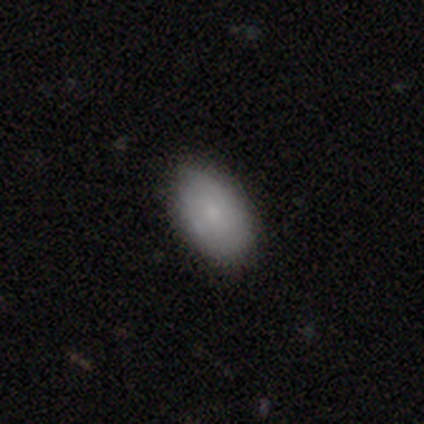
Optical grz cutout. It shows a smooth galaxy with no disk features (80%) that is in between round and cigar-shaped (96%). Merging: none (74%).